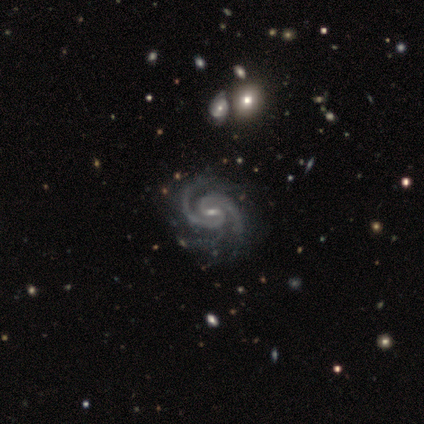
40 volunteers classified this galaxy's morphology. Smooth or featured?
  - featured or disk: 98% *
  - star or artifact: 2%
  - smooth: 0%
Edge-on disk?
  - no: 100% *
  - yes: 0%
Bar?
  - weak: 79% *
  - strong: 13%
  - no: 8%
Spiral arms?
  - yes: 100% *
  - no: 0%
Spiral winding?
  - tight: 56% *
  - medium: 41%
  - loose: 3%
Spiral arm count?
  - 2: 87% *
  - 3: 13%
  - 1: 0%
  - 4: 0%
  - more than 4: 0%
  - can't tell: 0%
Bulge size?
  - small: 56% *
  - moderate: 38%
  - none: 5%
  - dominant: 0%
  - large: 0%
Merging?
  - none: 64% *
  - minor disturbance: 15%
  - major disturbance: 5%
  - merger: 3%